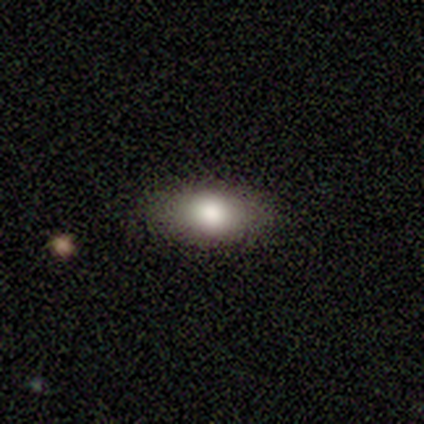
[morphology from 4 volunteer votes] Smooth or featured: smooth — 100%
How rounded: in between — 100%
Merging: none — 100%